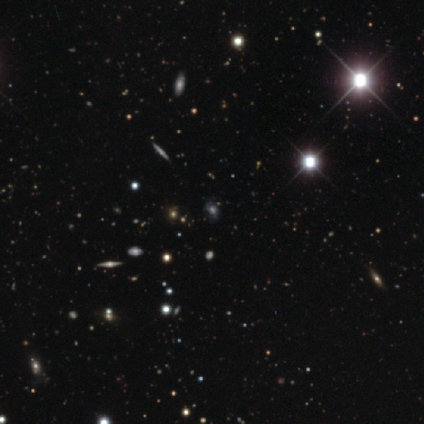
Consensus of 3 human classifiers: smooth-or-featured: star or artifact: 67% | featured or disk: 33% | smooth: 0%